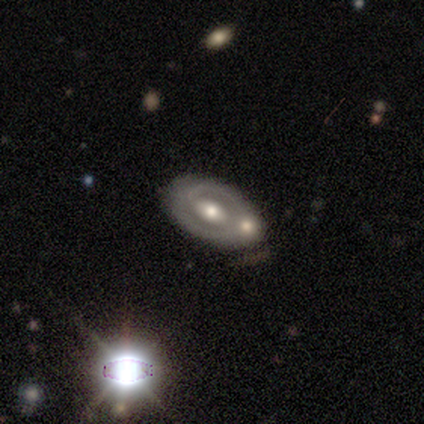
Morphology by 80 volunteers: smooth_or_featured: featured or disk (p=0.81) [alt: smooth p=0.12]
disk_edge_on: no (p=1.00)
bar: no (p=0.43) [alt: weak p=0.38]
has_spiral_arms: yes (p=0.68) [alt: no p=0.32]
spiral_winding: tight (p=0.61) [alt: medium p=0.30]
spiral_arm_count: 2 (p=0.64) [alt: 1 p=0.20]
bulge_size: moderate (p=0.62) [alt: large p=0.20]
merging: none (p=0.55) [alt: merger p=0.23]